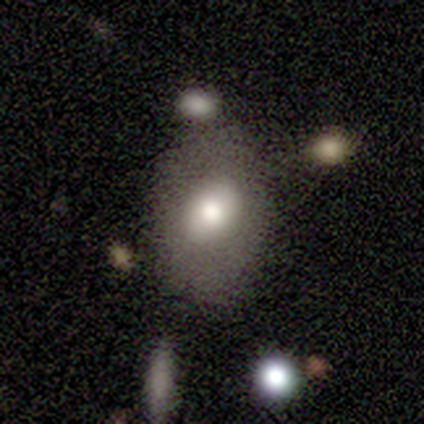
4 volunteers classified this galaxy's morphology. This appears to be a smooth galaxy with no disk features (50%, tied with featured or disk) that is round (50%, tied with in between). Merging: none (50%).